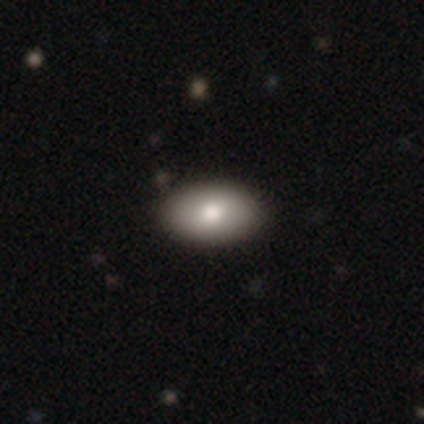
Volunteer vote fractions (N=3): smooth-or-featured: smooth: 67% | featured or disk: 33% | star or artifact: 0%
  how-rounded: in between: 100% | round: 0% | cigar-shaped: 0%
  merging: none: 100% | minor disturbance: 0% | major disturbance: 0% | merger: 0%